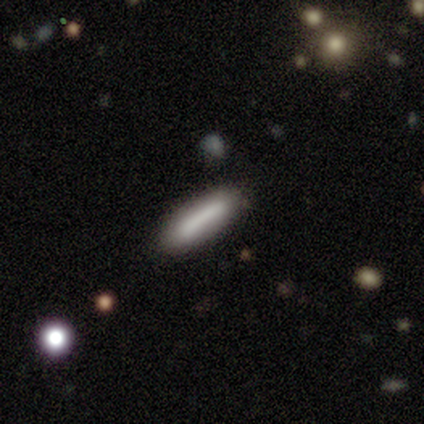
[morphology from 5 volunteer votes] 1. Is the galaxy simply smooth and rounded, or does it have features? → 80% smooth, 20% featured or disk, 0% star or artifact.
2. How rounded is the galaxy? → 100% cigar-shaped, 0% round, 0% in between.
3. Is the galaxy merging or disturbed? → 100% none, 0% minor disturbance, 0% major disturbance, 0% merger.